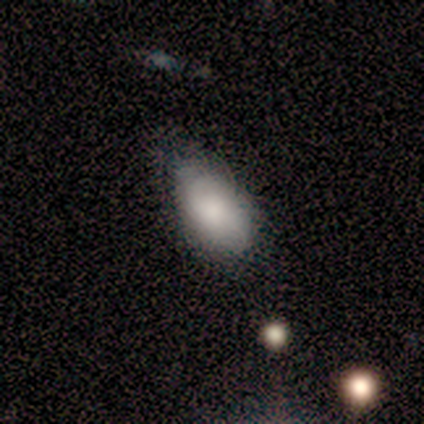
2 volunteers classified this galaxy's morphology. Overall: smooth (100%). How rounded: in between (100%). Merging: minor disturbance (100%).